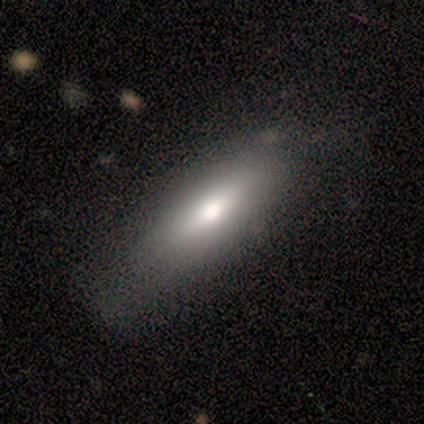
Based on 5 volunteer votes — Overall: smooth (40%, tied with featured or disk). How rounded: in between (100%). Merging: none (75%).